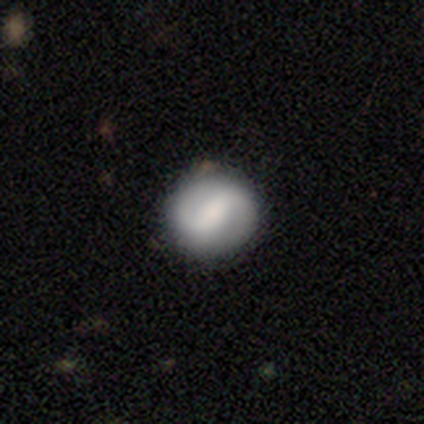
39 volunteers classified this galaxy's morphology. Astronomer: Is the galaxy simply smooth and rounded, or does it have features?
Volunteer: featured or disk — 59% (runner-up: smooth, 38%).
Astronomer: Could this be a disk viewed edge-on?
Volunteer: no — 100%.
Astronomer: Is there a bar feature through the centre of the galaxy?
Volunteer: strong — 57%.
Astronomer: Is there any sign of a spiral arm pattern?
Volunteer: yes — 100%.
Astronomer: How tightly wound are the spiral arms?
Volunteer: medium — 39% (runner-up: tight, 35%).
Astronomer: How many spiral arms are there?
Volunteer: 2 — 91%.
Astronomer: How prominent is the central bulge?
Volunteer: moderate — 43% (runner-up: small, 30%).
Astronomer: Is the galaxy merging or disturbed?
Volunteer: none — 87%.